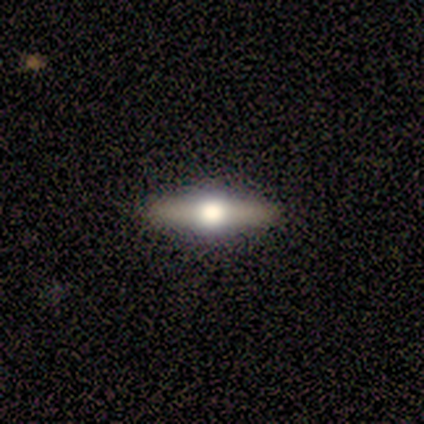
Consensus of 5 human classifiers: smooth 40% (tied), star or artifact 40% (tied), featured or disk 20%. Down the decision tree: how rounded — cigar-shaped (100%); merging — none (100%).